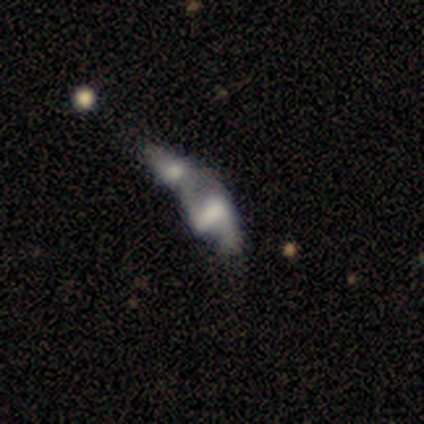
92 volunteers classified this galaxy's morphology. This appears to be a featured or disk galaxy (66%) with a strong bar (41%), 2 (83%) loose (72%) spiral arms (52%) and a large central bulge (34%). Merging: merger (77%).